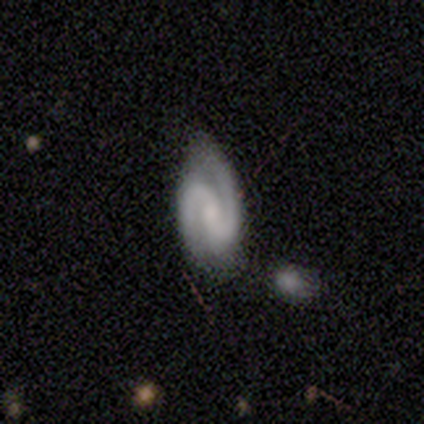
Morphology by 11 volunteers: Smooth or featured? featured or disk (91%)
Edge-on disk? no (100%)
Bar? weak (40%)
Spiral arms? yes (100%)
Spiral winding? tight (50%, tied with medium)
Spiral arm count? 2 (100%)
Bulge size? small (50%)
Merging? none (82%)